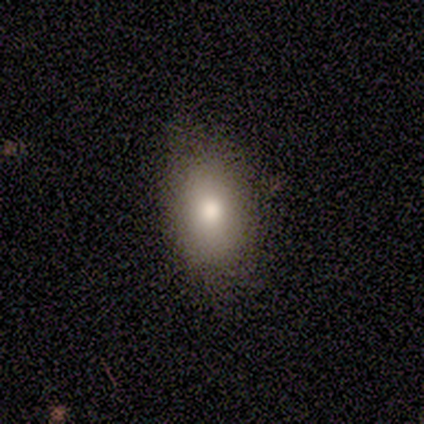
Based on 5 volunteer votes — Overall: smooth (60%; featured or disk 40%). How rounded: in between (100%). Merging: none (60%; minor disturbance 40%).